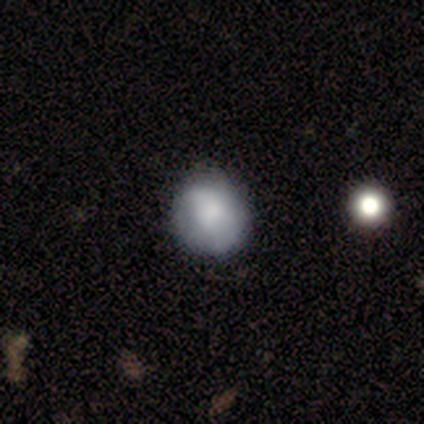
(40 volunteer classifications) Volunteers were most divided on "merging": none: 62%, minor disturbance: 10%, major disturbance: 8%, merger: 0%. More confident: smooth or featured — smooth (80%); how rounded — round (78%).